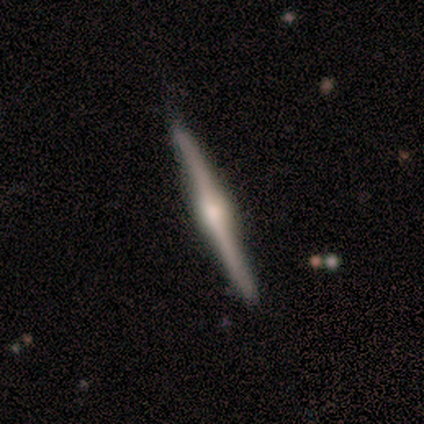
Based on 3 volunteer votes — A smooth galaxy with no disk features (67%) that is in between round and cigar-shaped (50%, tied with cigar-shaped). Merging: none (67%).